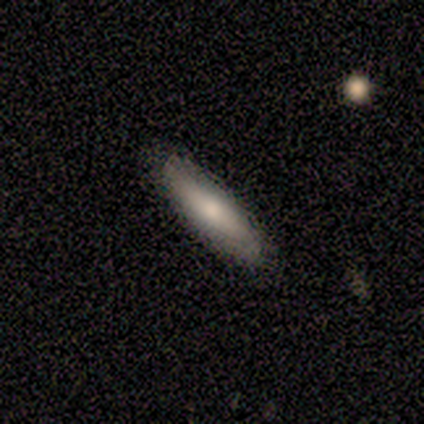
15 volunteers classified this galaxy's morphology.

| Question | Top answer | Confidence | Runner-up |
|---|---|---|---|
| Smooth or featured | smooth | 80% | featured or disk (13%) |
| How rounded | cigar-shaped | 75% | in between (25%) |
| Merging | none | 93% | minor disturbance (7%) |